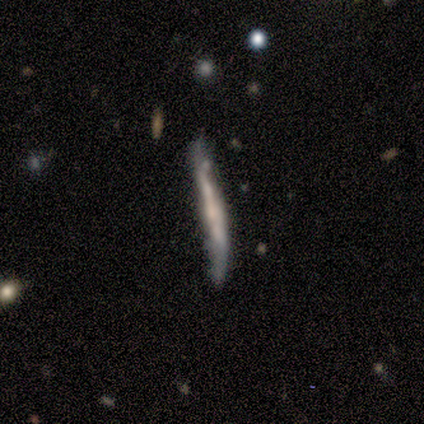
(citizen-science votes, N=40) smooth-or-featured: featured or disk: 52% | smooth: 40% | star or artifact: 8%
  disk-edge-on: yes: 90% | no: 10%
    edge-on-bulge: none: 63% | rounded: 21% | boxy: 16%
  merging: none: 54% | minor disturbance: 24% | major disturbance: 14% | merger: 8%